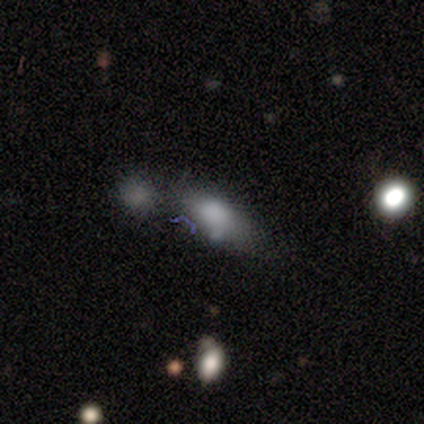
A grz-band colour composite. It shows a smooth galaxy with no disk features (100%) that is in between round and cigar-shaped (80%). Merging: none (80%).